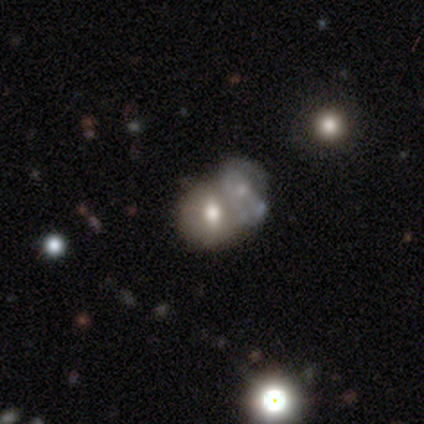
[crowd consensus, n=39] Q: Smooth or featured?
A: smooth (62%); runner-up: featured or disk (31%)
Q: How rounded?
A: round (50%); runner-up: in between (42%)
Q: Merging?
A: merger (72%); runner-up: none (14%)